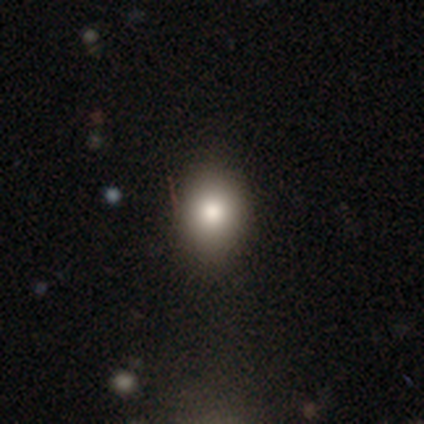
Overall: smooth (50%, tied with star or artifact). How rounded: in between (100%). Merging: none (100%).